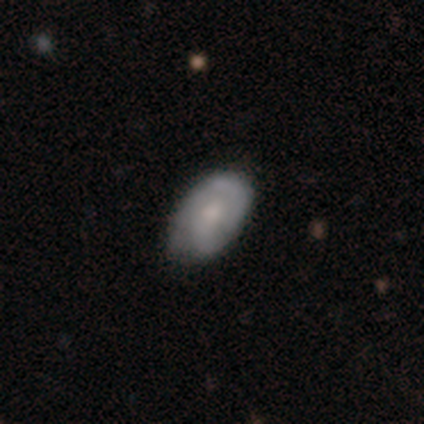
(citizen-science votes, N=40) Volunteers were most divided on "spiral winding" (2-way tie): tight: 35%, medium: 35%, loose: 29%. Remaining: edge-on disk — no (95%); spiral arms — yes (85%); bar — no (75%); merging — none (68%); spiral arm count — 2 (53%); smooth or featured — featured or disk (52%); bulge size — moderate (45%).